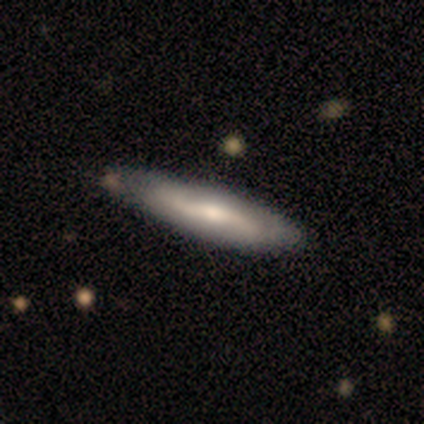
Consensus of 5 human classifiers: Volunteers were most divided on "bar" (2-way tie): weak: 50%, no: 50%, strong: 0%; "spiral arms" (2-way tie): yes: 50%, no: 50%; "bulge size" (2-way tie): moderate: 50%, small: 50%, dominant: 0%, large: 0%, none: 0%. More confident: spiral winding — medium (100%); spiral arm count — 2 (100%); merging — none (80%); edge-on disk — no (67%); smooth or featured — featured or disk (60%).